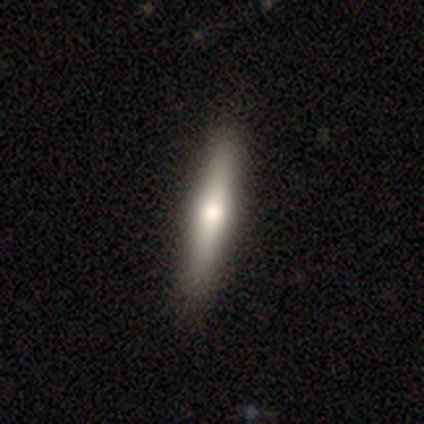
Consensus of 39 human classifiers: Morphology: type=smooth (62%); roundness=cigar-shaped (100%); merging=none (62%).